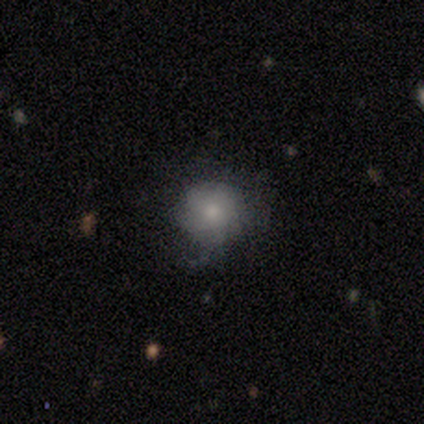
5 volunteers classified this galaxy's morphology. A featured or disk galaxy (80%) with no bar (100%), medium (100%) spiral arms (50%, tied with no) and a moderate central bulge (75%). Merging: none (60%).